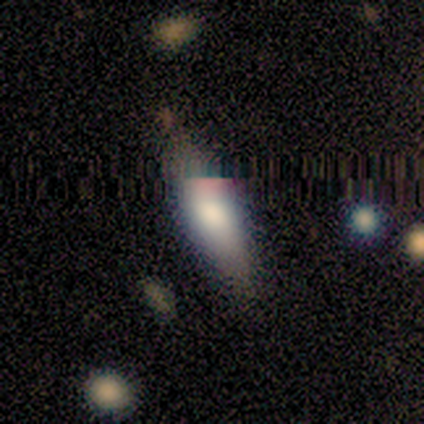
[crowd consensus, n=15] Volunteers were most divided on "how rounded": in between: 56%, cigar-shaped: 44%, round: 0%. More confident: merging — none (86%); smooth or featured — smooth (60%).